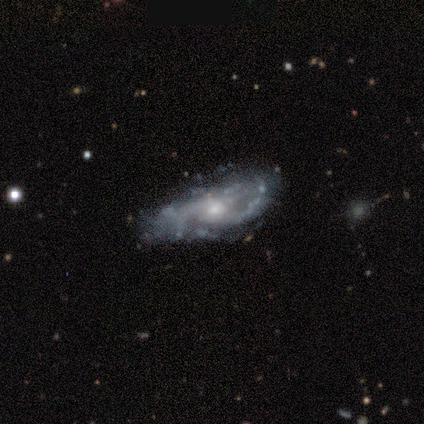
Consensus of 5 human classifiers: Smooth or featured?
  - featured or disk: 100% *
  - smooth: 0%
  - star or artifact: 0%
Edge-on disk?
  - no: 100% *
  - yes: 0%
Bar?
  - no: 100% *
  - strong: 0%
  - weak: 0%
Spiral arms?
  - yes: 80% *
  - no: 20%
Spiral winding?
  - loose: 75% *
  - medium: 25%
  - tight: 0%
Spiral arm count?
  - 2: 100% *
  - 1: 0%
  - 3: 0%
  - 4: 0%
  - more than 4: 0%
  - can't tell: 0%
Bulge size?
  - moderate: 40% * (tied)
  - small: 40% * (tied)
  - none: 20%
  - dominant: 0%
  - large: 0%
Merging?
  - none: 40% * (tied)
  - major disturbance: 40% * (tied)
  - minor disturbance: 20%
  - merger: 0%